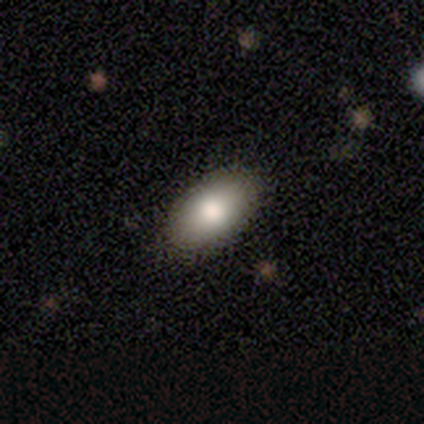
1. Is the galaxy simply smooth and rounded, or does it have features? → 100% smooth, 0% featured or disk, 0% star or artifact.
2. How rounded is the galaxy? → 100% in between, 0% round, 0% cigar-shaped.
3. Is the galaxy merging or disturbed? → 80% none, 20% minor disturbance, 0% major disturbance, 0% merger.